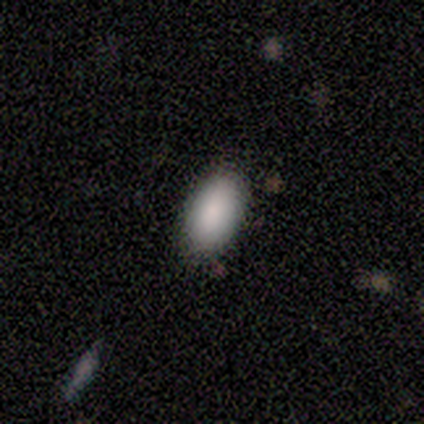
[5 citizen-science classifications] A smooth galaxy with no disk features (100%) that is in between round and cigar-shaped (100%). Merging: none (100%).